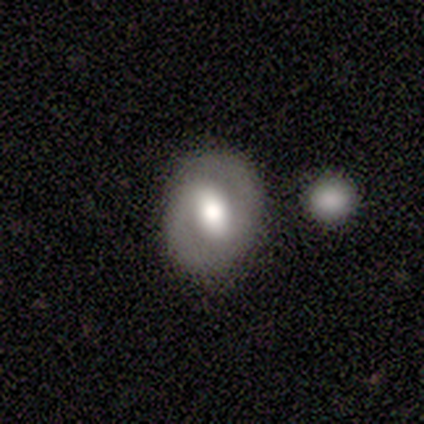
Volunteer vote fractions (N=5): smooth-or-featured: smooth: 40% (tied) | featured or disk: 40% (tied) | star or artifact: 20%
  how-rounded: round: 50% (tied) | in between: 50% (tied) | cigar-shaped: 0%
  merging: none: 50% (tied) | merger: 50% (tied) | minor disturbance: 0% | major disturbance: 0%